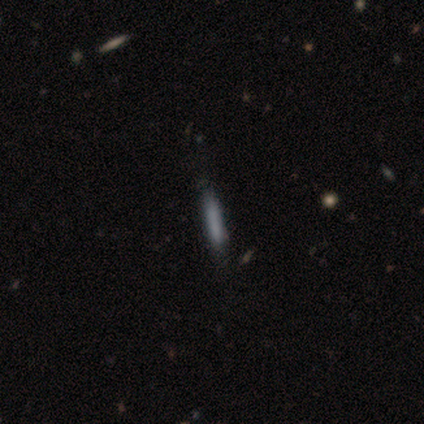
Smooth or featured: smooth — 40% (tied with featured or disk — 40%)
How rounded: cigar-shaped — 100%
Merging: none — 100%